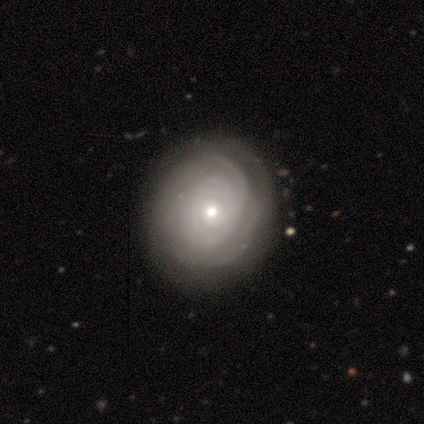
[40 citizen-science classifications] smooth-or-featured: featured or disk: 92% | smooth: 5% | star or artifact: 2%
  disk-edge-on: no: 97% | yes: 3%
    bar: no: 89% | weak: 8% | strong: 3%
    has-spiral-arms: yes: 94% | no: 6%
      spiral-winding: tight: 82% | medium: 15% | loose: 3%
      spiral-arm-count: can't tell: 59% | more than 4: 15% | 2: 12% | 3: 12% | 4: 3% | 1: 0%
    bulge-size: moderate: 47% | small: 44% | large: 8% | dominant: 0% | none: 0%
  merging: none: 77% | minor disturbance: 5% | major disturbance: 3% | merger: 0%